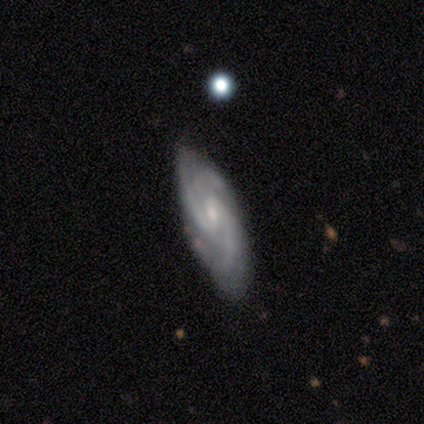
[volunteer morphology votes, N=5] Overall: featured or disk (80%). Edge-on disk: no (100%). Bar: weak (50%, tied with no). Spiral arms: yes (100%). Spiral arm count: 3 (50%; 2 25%). Spiral winding: medium (75%). Bulge size: small (75%). Merging: none (100%).